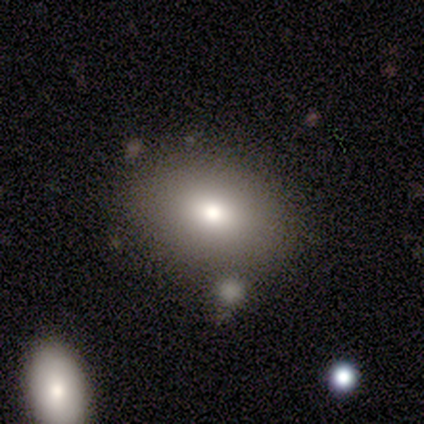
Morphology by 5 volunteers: smooth-or-featured: smooth: 80% | featured or disk: 20% | star or artifact: 0%
  how-rounded: in between: 75% | round: 25% | cigar-shaped: 0%
  merging: none: 100% | minor disturbance: 0% | major disturbance: 0% | merger: 0%